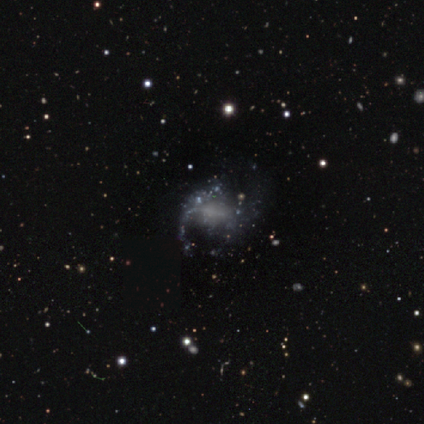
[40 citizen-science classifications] Smooth or featured: featured or disk — 62% (star or artifact — 25%)
Edge-on disk: no — 96% (yes — 4%)
Bar: no — 50% (weak — 42%)
Spiral arms: yes — 67% (no — 33%)
Spiral winding: loose — 75% (tight — 12%)
Spiral arm count: 2 — 75% (1 — 12%)
Bulge size: none — 88% (small — 8%)
Merging: none — 47% (major disturbance — 33%)